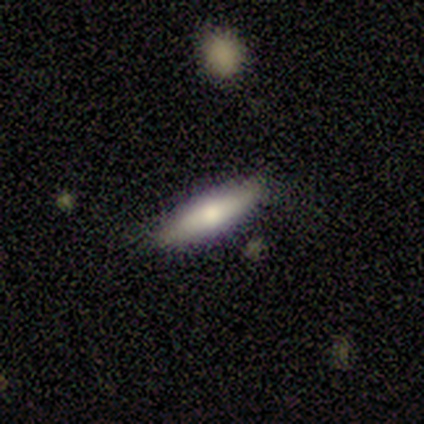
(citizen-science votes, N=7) Smooth or featured?
  - smooth: 43% *
  - featured or disk: 29%
  - star or artifact: 29%
How rounded?
  - cigar-shaped: 100% *
  - round: 0%
  - in between: 0%
Merging?
  - none: 100% *
  - minor disturbance: 0%
  - major disturbance: 0%
  - merger: 0%